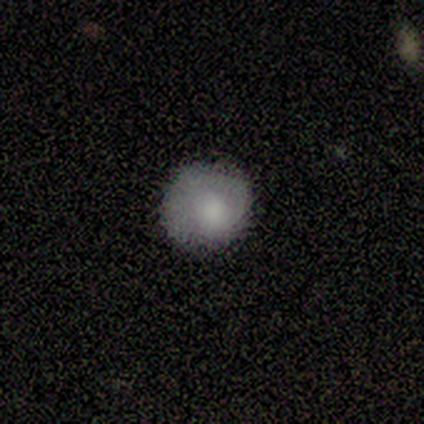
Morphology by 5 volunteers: Volunteers were most divided on "how rounded": round: 80%, in between: 20%, cigar-shaped: 0%. More confident: smooth or featured — smooth (100%); merging — none (80%).